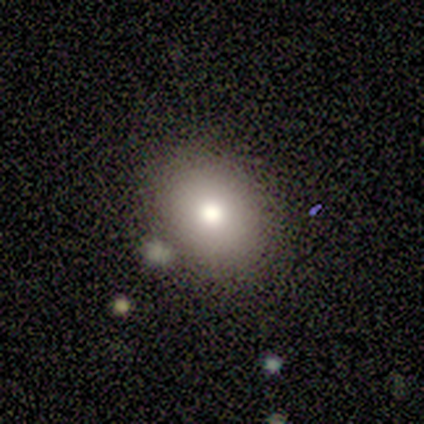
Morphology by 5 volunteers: Overall: featured or disk (40%, tied with star or artifact). Edge-on disk: no (100%). Bar: no (100%). Spiral arms: no (100%). Bulge size: moderate (100%). Merging: none (100%).